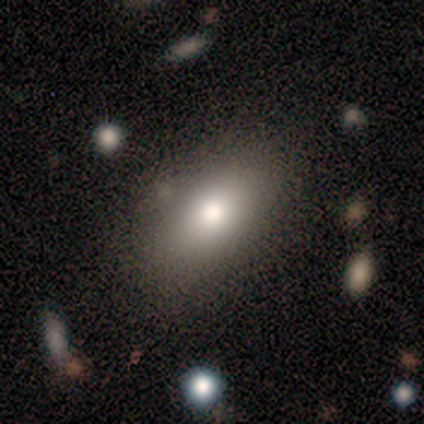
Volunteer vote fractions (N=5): A smooth galaxy with no disk features (60%) that is in between round and cigar-shaped (100%). Merging: none (60%).